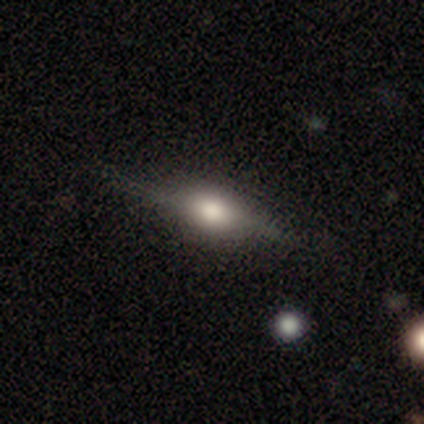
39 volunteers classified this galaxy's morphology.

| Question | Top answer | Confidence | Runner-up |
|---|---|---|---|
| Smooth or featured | featured or disk | 69% | smooth (26%) |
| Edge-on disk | yes | 96% | no (4%) |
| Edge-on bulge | rounded | 96% | boxy (4%) |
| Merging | none | 86% | minor disturbance (8%) |